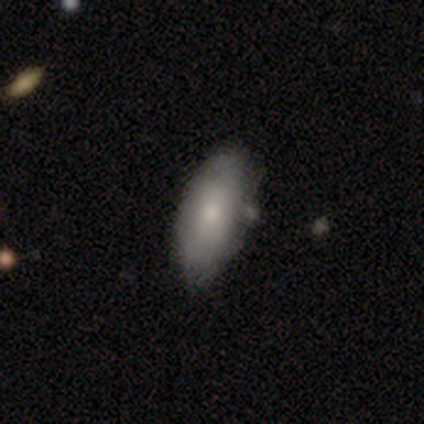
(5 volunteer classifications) A smooth galaxy with no disk features (60%) that is in between round and cigar-shaped (100%).

Vote fractions:
- Smooth or featured? smooth: 60% / featured or disk: 40% / star or artifact: 0%
- How rounded? in between: 100% / round: 0% / cigar-shaped: 0%
- Merging? none: 40% (tied) / minor disturbance: 40% (tied) / major disturbance: 20% / merger: 0%